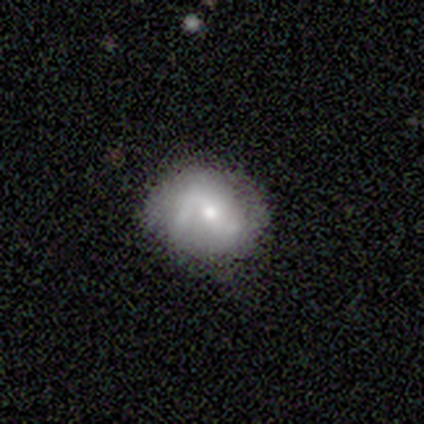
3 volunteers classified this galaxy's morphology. Smooth or featured? 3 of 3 (100%) said featured or disk. Edge-on disk? 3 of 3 (100%) said no. Bar? 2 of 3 (67%) said no. Spiral arms? 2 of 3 (67%) said no. Bulge size? 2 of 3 (67%) said small. Merging? 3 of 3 (100%) said none.